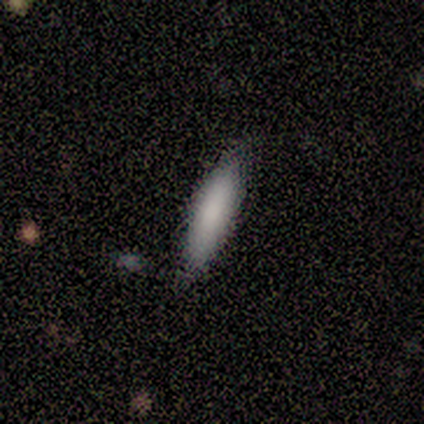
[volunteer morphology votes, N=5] Volunteers were most divided on "how rounded" (2-way tie): in between: 50%, cigar-shaped: 50%, round: 0%. More confident: smooth or featured — smooth (80%); merging — none (80%).